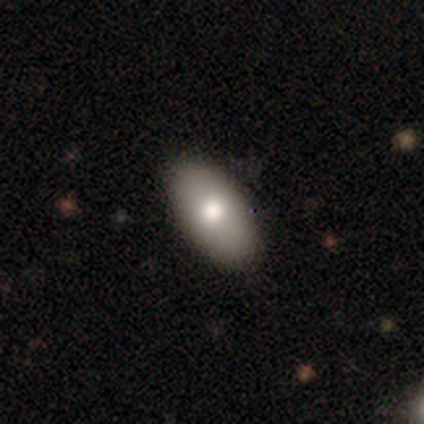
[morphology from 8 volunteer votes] smooth_or_featured: smooth (p=0.50) [alt: featured or disk p=0.38]
how_rounded: in between (p=1.00)
merging: none (p=0.86) [alt: minor disturbance p=0.14]